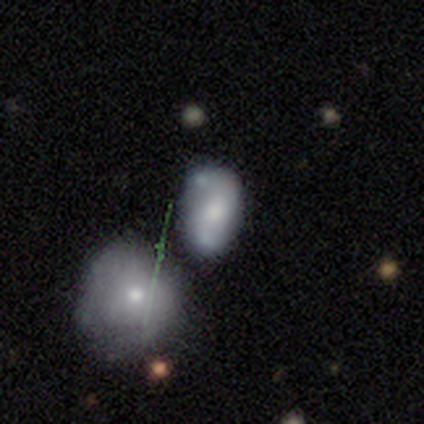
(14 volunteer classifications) Smooth or featured? 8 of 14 (57%) said featured or disk. Edge-on disk? 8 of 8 (100%) said no. Bar? 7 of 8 (88%) said no. Spiral arms? 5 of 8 (62%) said no. Bulge size? 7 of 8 (88%) said moderate. Merging? 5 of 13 (38%) said none.